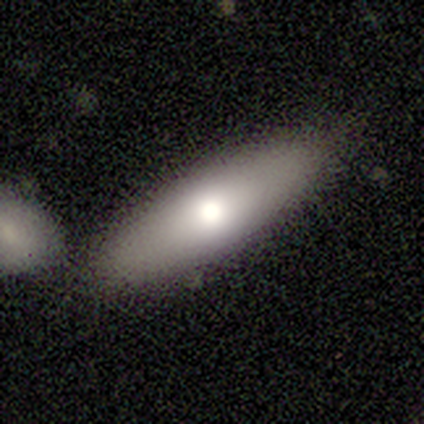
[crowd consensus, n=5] Volunteers were most divided on "how rounded": cigar-shaped: 60%, in between: 40%, round: 0%. More confident: smooth or featured — smooth (100%); merging — none (80%).